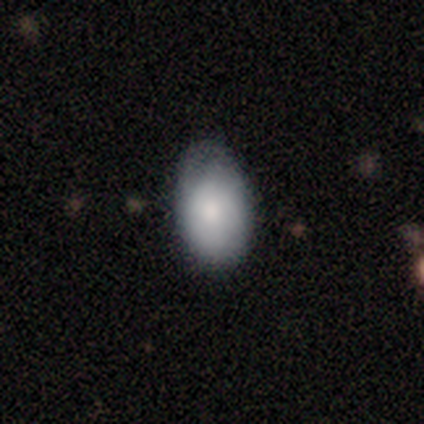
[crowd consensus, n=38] Smooth or featured? smooth (82%)
How rounded? in between (94%)
Merging? none (67%)